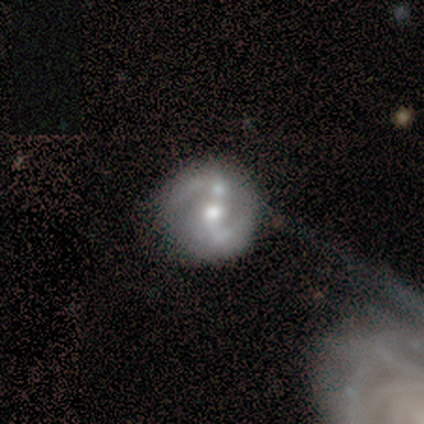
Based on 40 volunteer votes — featured or disk 78%, smooth 12%, star or artifact 10%. Down the decision tree: edge-on disk — no (100%); bar — weak (48%); spiral arms — yes (77%); spiral arm count — 2 (83%); spiral winding — medium (54%); bulge size — moderate (61%); merging — merger (33%).